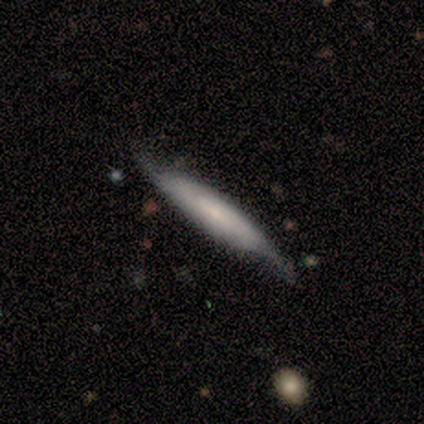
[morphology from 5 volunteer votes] A featured or disk galaxy (80%) viewed edge-on (75%) with no central bulge (100%).

Vote fractions:
- Smooth or featured? featured or disk: 80% / smooth: 20% / star or artifact: 0%
- Edge-on disk? yes: 75% / no: 25%
- Edge-on bulge? none: 100% / boxy: 0% / rounded: 0%
- Merging? none: 100% / minor disturbance: 0% / major disturbance: 0% / merger: 0%